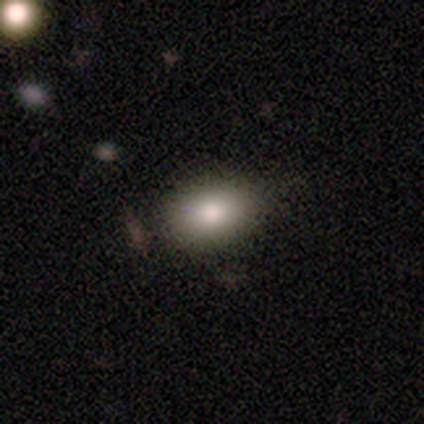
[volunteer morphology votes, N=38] A smooth galaxy with no disk features (87%) that is in between round and cigar-shaped (73%). Merging: none (54%).